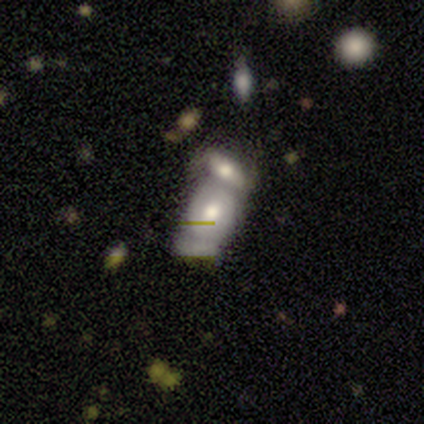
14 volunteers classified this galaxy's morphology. A smooth galaxy with no disk features (43%, tied with featured or disk) that is in between round and cigar-shaped (83%). Merging: merger (75%).